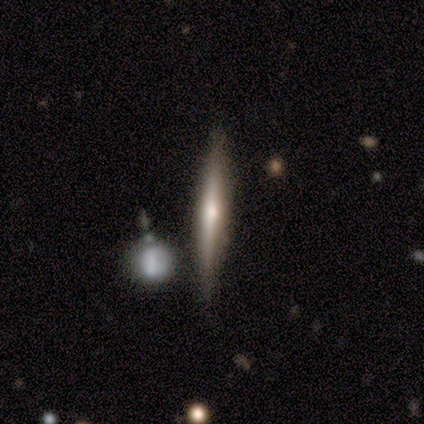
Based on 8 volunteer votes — Smooth or featured? featured or disk (88%)
Edge-on disk? yes (100%)
Edge-on bulge? rounded (71%)
Merging? none (88%)